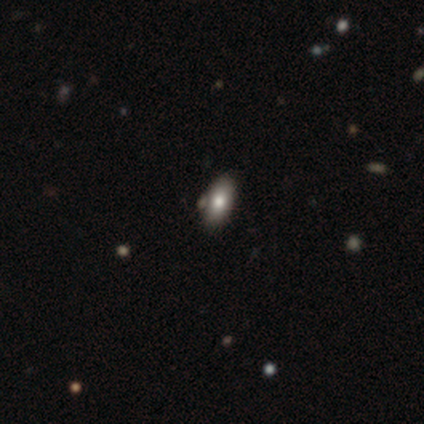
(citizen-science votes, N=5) Q: Smooth or featured?
A: smooth (60%); runner-up: star or artifact (40%)
Q: How rounded?
A: in between (100%)
Q: Merging?
A: none (100%)